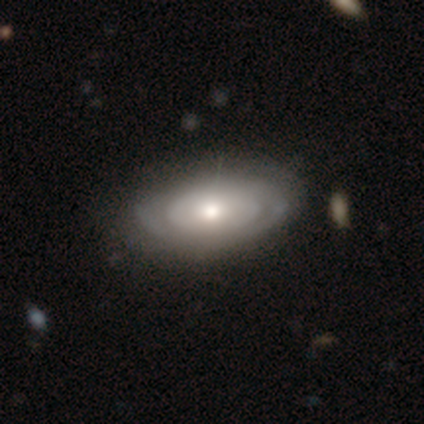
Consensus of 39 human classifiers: A featured or disk galaxy (72%) with no bar (93%), no spiral arms (52%) and a moderate central bulge (59%).

Vote fractions:
- Smooth or featured? featured or disk: 72% / smooth: 26% / star or artifact: 3%
- Edge-on disk? no: 96% / yes: 4%
- Bar? no: 93% / weak: 7% / strong: 0%
- Spiral arms? no: 52% / yes: 48%
- Bulge size? moderate: 59% / small: 22% / large: 15% / dominant: 4% / none: 0%
- Merging? none: 55% / minor disturbance: 11% / major disturbance: 3% / merger: 3%